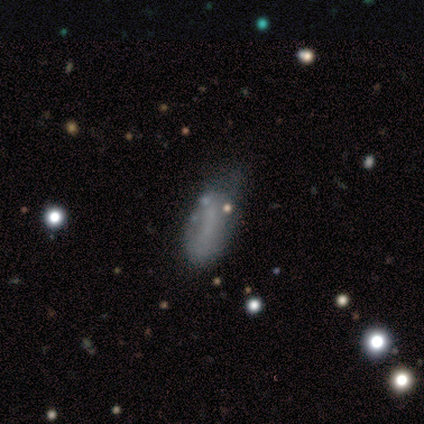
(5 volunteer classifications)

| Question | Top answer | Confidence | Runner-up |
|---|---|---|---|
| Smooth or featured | smooth | 80% | star or artifact (20%) |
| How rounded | in between | 100% | — |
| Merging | minor disturbance | 75% | none (25%) |